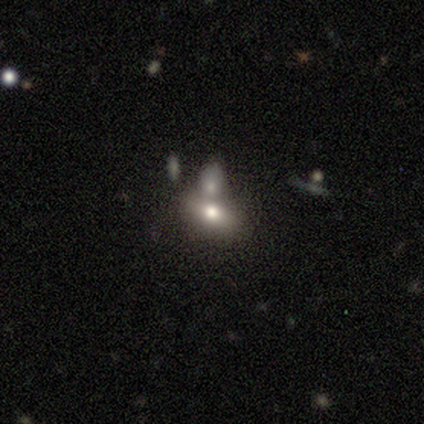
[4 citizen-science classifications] A smooth galaxy with no disk features (100%) that is in between round and cigar-shaped (100%).

Vote fractions:
- Smooth or featured? smooth: 100% / featured or disk: 0% / star or artifact: 0%
- How rounded? in between: 100% / round: 0% / cigar-shaped: 0%
- Merging? merger: 75% / none: 25% / minor disturbance: 0% / major disturbance: 0%